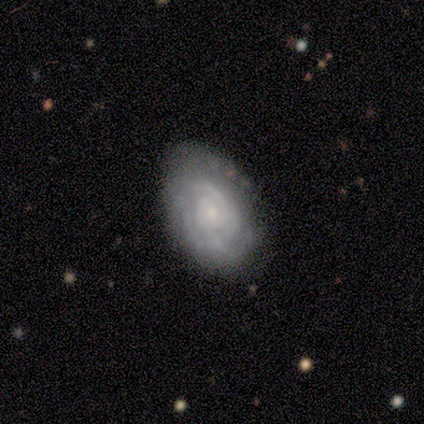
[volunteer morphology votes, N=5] Smooth or featured?
  - featured or disk: 60% *
  - smooth: 40%
  - star or artifact: 0%
Edge-on disk?
  - no: 100% *
  - yes: 0%
Bar?
  - weak: 67% *
  - strong: 33%
  - no: 0%
Spiral arms?
  - yes: 100% *
  - no: 0%
Spiral winding?
  - tight: 100% *
  - medium: 0%
  - loose: 0%
Spiral arm count?
  - can't tell: 67% *
  - 4: 33%
  - 1: 0%
  - 2: 0%
  - 3: 0%
  - more than 4: 0%
Bulge size?
  - small: 100% *
  - dominant: 0%
  - large: 0%
  - moderate: 0%
  - none: 0%
Merging?
  - none: 80% *
  - minor disturbance: 20%
  - major disturbance: 0%
  - merger: 0%